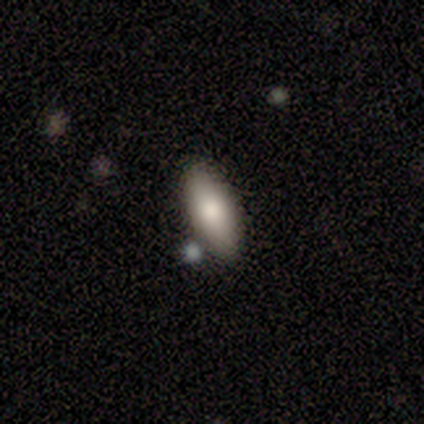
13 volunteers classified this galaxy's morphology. Volunteers were most divided on "how rounded": cigar-shaped: 55%, in between: 45%, round: 0%. More confident: smooth or featured — smooth (85%); merging — none (77%).